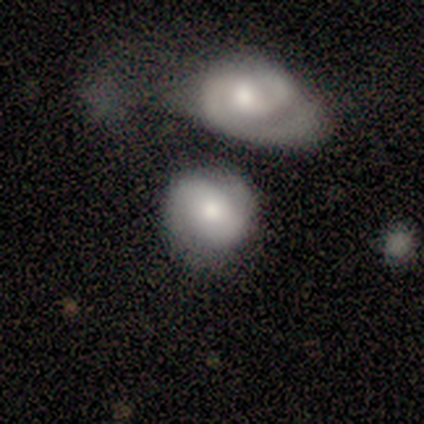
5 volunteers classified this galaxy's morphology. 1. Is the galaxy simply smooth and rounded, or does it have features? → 60% smooth, 40% featured or disk, 0% star or artifact.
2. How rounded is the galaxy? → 67% round, 33% in between, 0% cigar-shaped.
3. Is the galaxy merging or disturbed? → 60% minor disturbance, 40% none, 0% major disturbance, 0% merger.